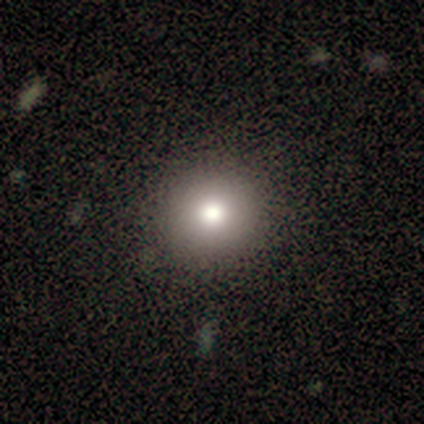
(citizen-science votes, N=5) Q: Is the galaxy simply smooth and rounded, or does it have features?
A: smooth — 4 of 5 (80%).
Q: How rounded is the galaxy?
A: round — 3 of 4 (75%).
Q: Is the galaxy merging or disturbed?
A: none — 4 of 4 (100%).